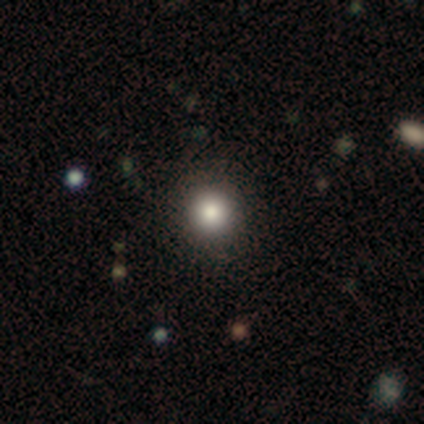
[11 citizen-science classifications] Volunteers were most divided on "smooth or featured": smooth: 73%, star or artifact: 18%, featured or disk: 9%. More confident: how rounded — round (88%); merging — none (78%).